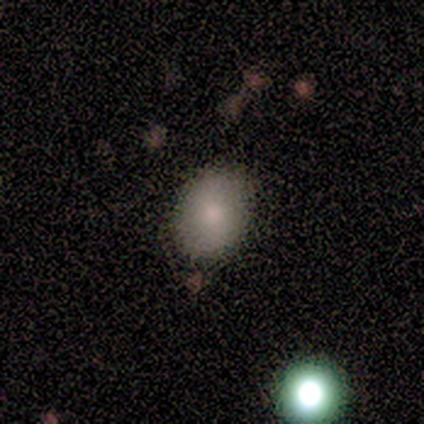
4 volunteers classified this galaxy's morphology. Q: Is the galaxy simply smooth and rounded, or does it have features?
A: smooth — 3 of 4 (75%).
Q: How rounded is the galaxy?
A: round — 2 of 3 (67%).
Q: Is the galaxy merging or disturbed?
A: none — 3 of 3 (100%).